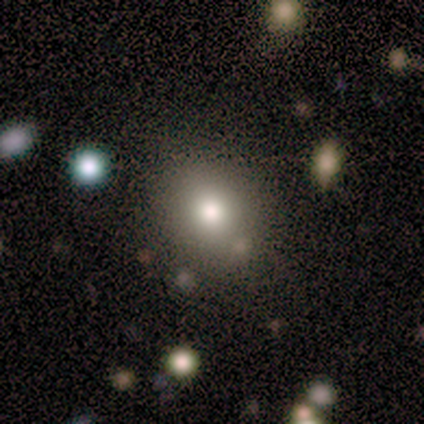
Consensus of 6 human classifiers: smooth-or-featured: smooth: 83% | featured or disk: 17% | star or artifact: 0%
  how-rounded: round: 80% | in between: 20% | cigar-shaped: 0%
  merging: none: 83% | merger: 17% | minor disturbance: 0% | major disturbance: 0%